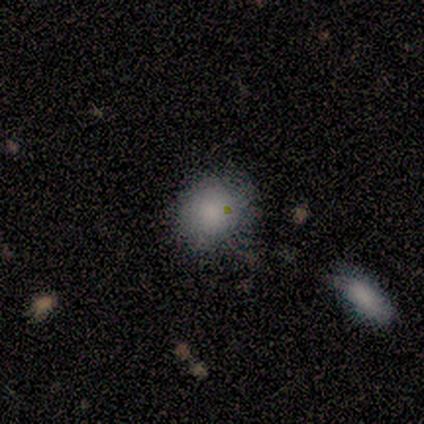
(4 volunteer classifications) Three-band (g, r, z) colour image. It shows a smooth galaxy with no disk features (100%) that is round (75%). Merging: none (75%).